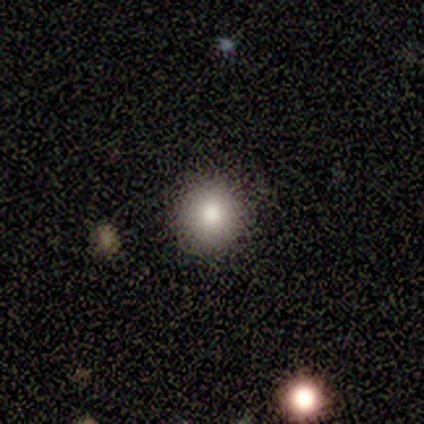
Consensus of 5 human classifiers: This is clearly a smooth galaxy (100%). How rounded: clearly round (100%). Merging: clearly none (100%).